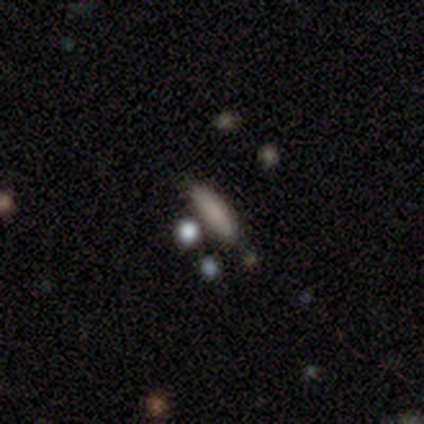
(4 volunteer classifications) smooth 100%, featured or disk 0%, star or artifact 0%. Down the decision tree: how rounded — in between (50%, tied with cigar-shaped); merging — none (100%).